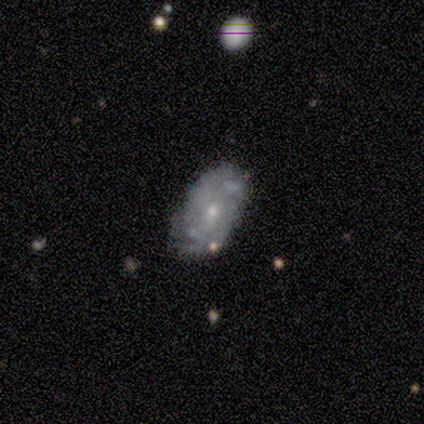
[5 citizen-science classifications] Smooth or featured? featured or disk (60%)
Edge-on disk? no (100%)
Bar? no (100%)
Spiral arms? yes (67%)
Spiral winding? tight (100%)
Spiral arm count? can't tell (100%)
Bulge size? moderate (67%)
Merging? none (60%)